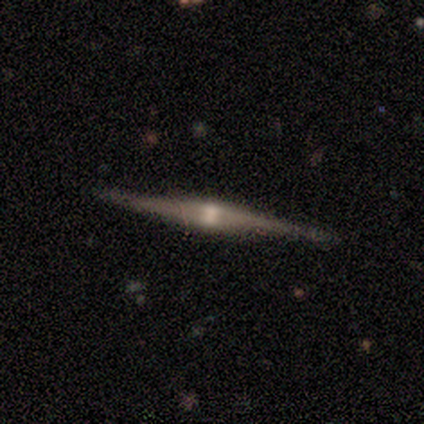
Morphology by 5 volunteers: Smooth or featured: featured or disk — 60% (smooth — 20%)
Edge-on disk: yes — 100%
Edge-on bulge: rounded — 100%
Merging: none — 100%